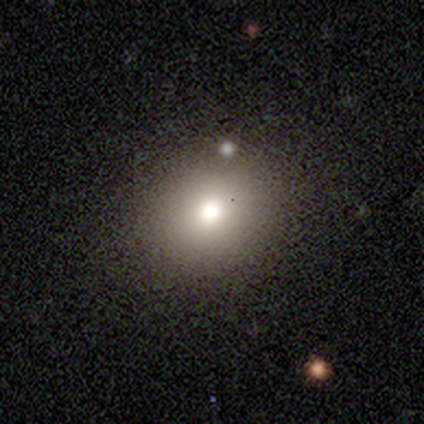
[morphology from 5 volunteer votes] type=smooth (100%); roundness=round (80%); merging=none (80%).